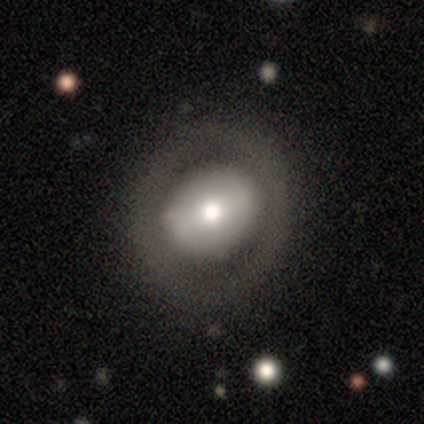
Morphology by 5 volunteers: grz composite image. It shows a featured or disk galaxy (60%) with a weak bar (67%), no spiral arms (100%) and a dominant central bulge (33%, tied with large and small). Merging: none (100%).